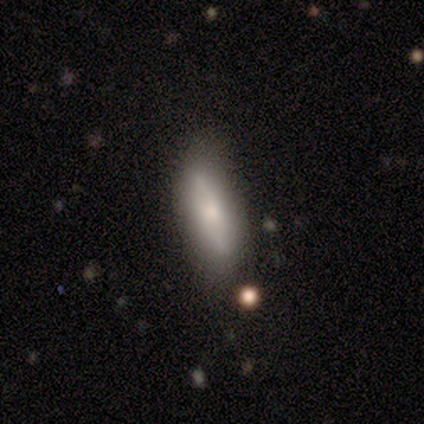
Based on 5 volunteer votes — A smooth galaxy with no disk features (60%) that is cigar-shaped (67%).

Vote fractions:
- Smooth or featured? smooth: 60% / featured or disk: 40% / star or artifact: 0%
- How rounded? cigar-shaped: 67% / in between: 33% / round: 0%
- Merging? none: 100% / minor disturbance: 0% / major disturbance: 0% / merger: 0%